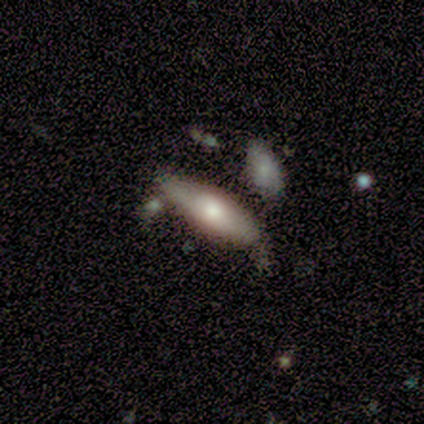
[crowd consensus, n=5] Smooth or featured? 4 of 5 (80%) said smooth. How rounded? 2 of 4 (50%, tied with cigar-shaped) said in between. Merging? 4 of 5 (80%) said none.